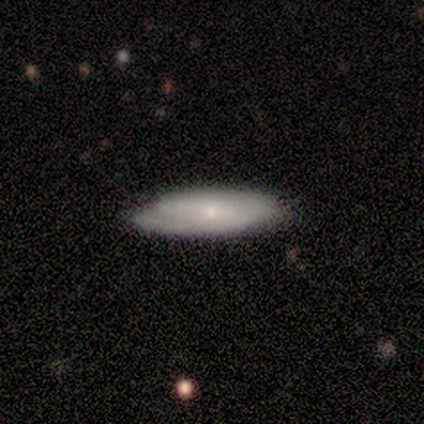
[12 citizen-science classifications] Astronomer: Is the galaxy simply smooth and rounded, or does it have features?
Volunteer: featured or disk — 58% (runner-up: smooth, 42%).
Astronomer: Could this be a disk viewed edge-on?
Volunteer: no — 86%.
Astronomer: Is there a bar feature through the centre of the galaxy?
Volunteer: no — 67%.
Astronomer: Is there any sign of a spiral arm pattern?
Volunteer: yes — 67%.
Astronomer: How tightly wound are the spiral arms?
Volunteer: medium — 75%.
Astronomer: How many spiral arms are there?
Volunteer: can't tell — 50%.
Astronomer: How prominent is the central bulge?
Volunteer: small — 50% (runner-up: moderate, 33%).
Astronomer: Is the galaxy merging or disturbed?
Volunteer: none — 83%.